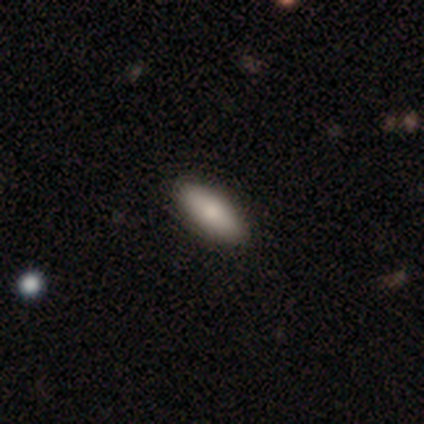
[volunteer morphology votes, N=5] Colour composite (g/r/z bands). It shows a smooth galaxy with no disk features (100%) that is in between round and cigar-shaped (60%). Merging: none (80%).